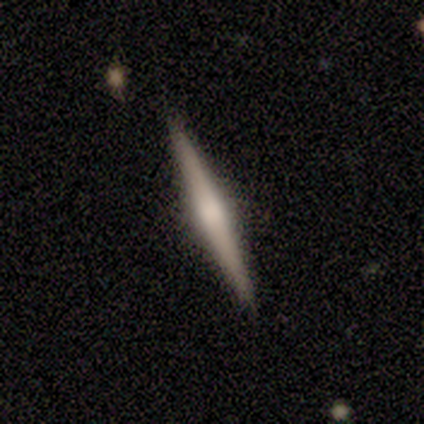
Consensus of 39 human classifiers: Smooth or featured: featured or disk — 74% (smooth — 26%)
Edge-on disk: yes — 97% (no — 3%)
Edge-on bulge: rounded — 57% (none — 36%)
Merging: none — 87% (minor disturbance — 10%)